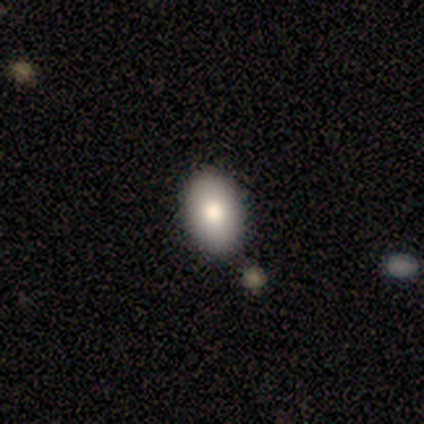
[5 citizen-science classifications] A smooth galaxy with no disk features (80%) that is in between round and cigar-shaped (75%). Merging: none (80%).